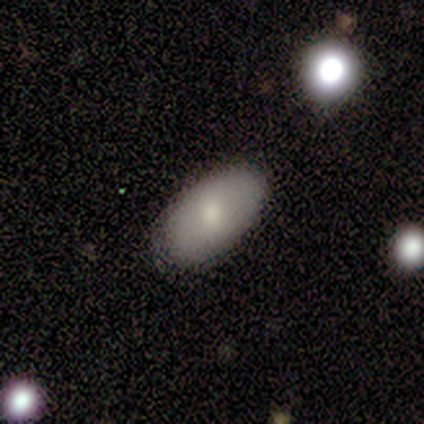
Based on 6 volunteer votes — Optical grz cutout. It shows a smooth galaxy with no disk features (100%) that is in between round and cigar-shaped (83%). Merging: none (83%).